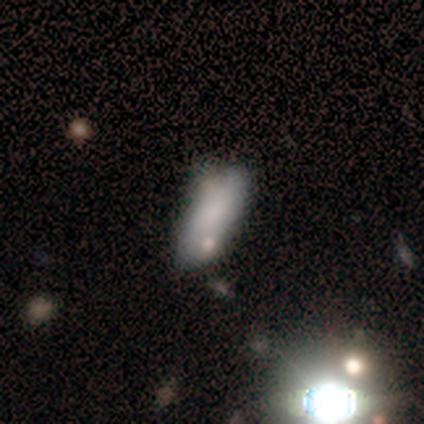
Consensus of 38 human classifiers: Q: Smooth or featured?
A: smooth (76%); runner-up: featured or disk (16%)
Q: How rounded?
A: in between (76%); runner-up: cigar-shaped (24%)
Q: Merging?
A: none (51%); runner-up: minor disturbance (31%)